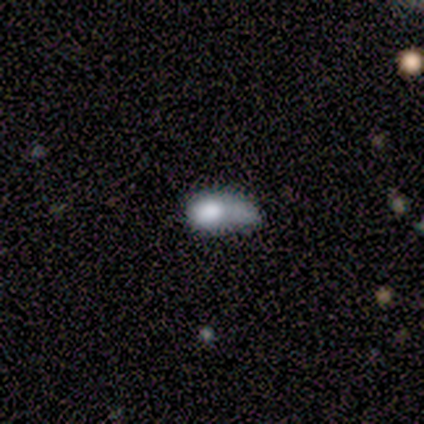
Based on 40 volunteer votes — Q: Smooth or featured?
A: smooth (75%); runner-up: featured or disk (20%)
Q: How rounded?
A: in between (87%); runner-up: round (10%)
Q: Merging?
A: minor disturbance (37%); runner-up: major disturbance (32%)